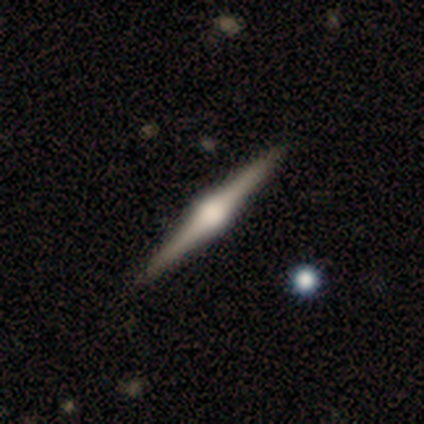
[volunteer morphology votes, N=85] This appears to be a featured or disk galaxy (80%) viewed edge-on (99%) with a rounded central bulge (96%). Merging: none (93%).